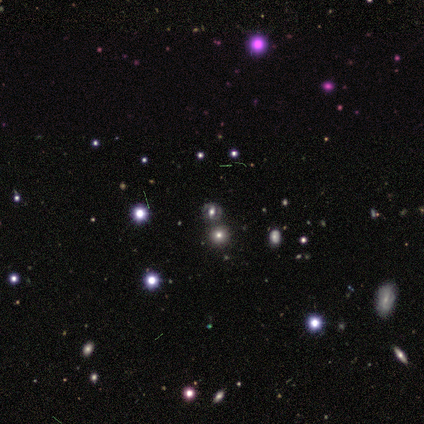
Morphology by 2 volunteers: Smooth or featured? star or artifact (100%)